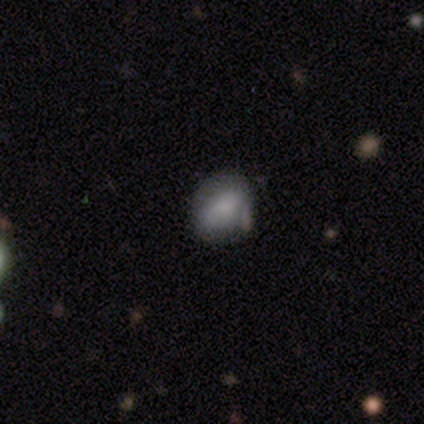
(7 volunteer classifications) smooth_or_featured: smooth (p=0.71) [alt: featured or disk p=0.29]
how_rounded: in between (p=0.60) [alt: round p=0.40]
merging: none (p=0.71) [alt: minor disturbance p=0.29]